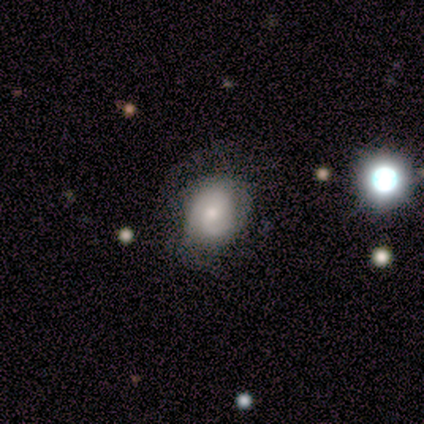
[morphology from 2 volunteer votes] Volunteers were most divided on "how rounded" (2-way tie): round: 50%, in between: 50%, cigar-shaped: 0%. More confident: smooth or featured — smooth (100%); merging — none (100%).